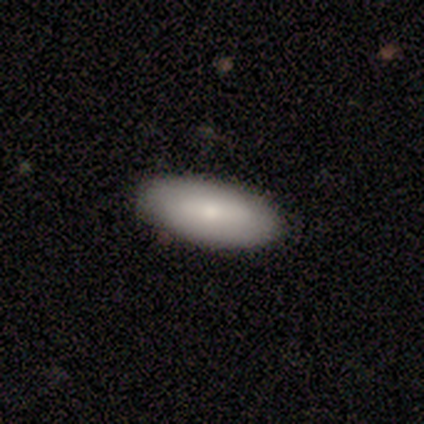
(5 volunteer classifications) Smooth or featured: smooth — 60% (featured or disk — 40%)
How rounded: in between — 100%
Merging: none — 100%